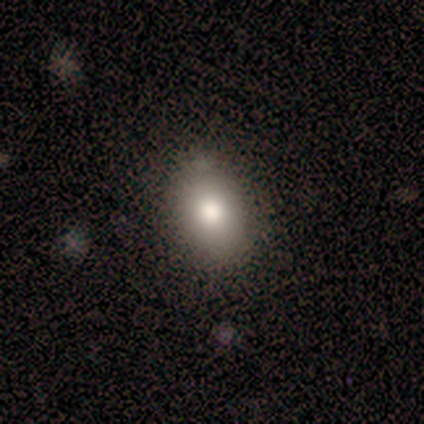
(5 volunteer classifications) Smooth or featured: smooth — 100%
How rounded: in between — 60% (round — 40%)
Merging: none — 60% (minor disturbance — 20%)